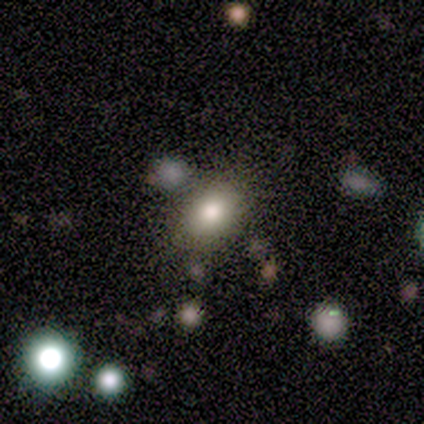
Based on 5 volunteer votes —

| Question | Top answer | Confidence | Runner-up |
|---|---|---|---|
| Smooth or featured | smooth | 80% | featured or disk (20%) |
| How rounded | round | 50% | tied: in between (50%) |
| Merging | none | 80% | merger (20%) |